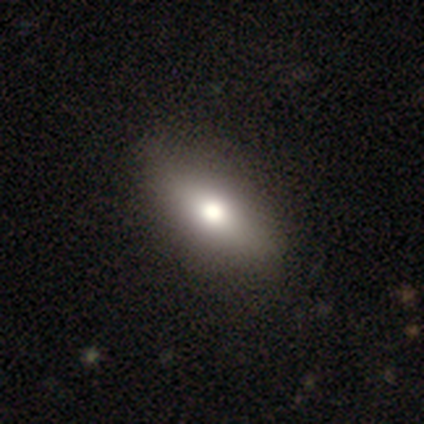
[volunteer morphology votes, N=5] smooth 80%, star or artifact 20%, featured or disk 0%. Down the decision tree: how rounded — in between (75%); merging — none (75%).